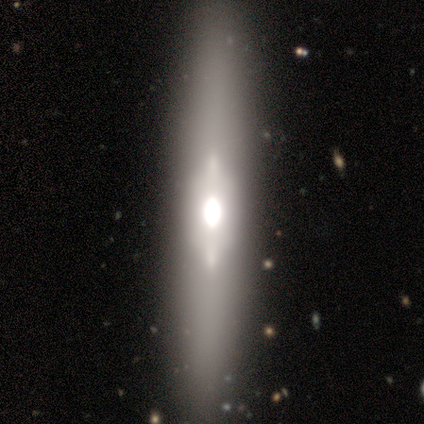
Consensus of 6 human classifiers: smooth_or_featured: featured or disk (p=0.83) [alt: smooth p=0.17]
disk_edge_on: yes (p=0.80) [alt: no p=0.20]
edge_on_bulge: rounded (p=0.50) [alt: boxy p=0.25]
merging: none (p=0.67) [alt: minor disturbance p=0.17]